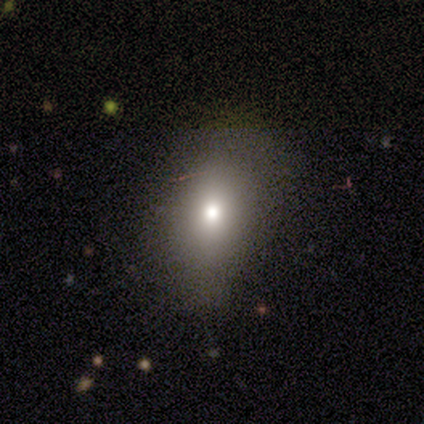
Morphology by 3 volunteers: A smooth galaxy with no disk features (67%) that is round (50%, tied with in between).

Vote fractions:
- Smooth or featured? smooth: 67% / featured or disk: 33% / star or artifact: 0%
- How rounded? round: 50% (tied) / in between: 50% (tied) / cigar-shaped: 0%
- Merging? none: 67% / minor disturbance: 33% / major disturbance: 0% / merger: 0%